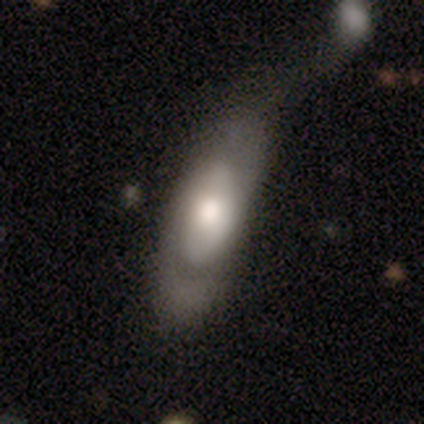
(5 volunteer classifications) This appears to be a smooth galaxy with no disk features (60%) that is in between round and cigar-shaped (100%). Merging: minor disturbance (40%).